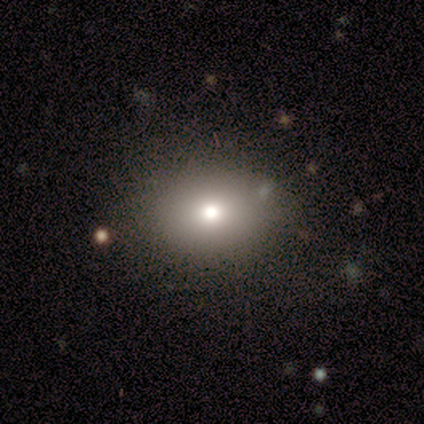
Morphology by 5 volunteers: Smooth or featured: smooth — 80% (star or artifact — 20%)
How rounded: in between — 75% (round — 25%)
Merging: none — 100%